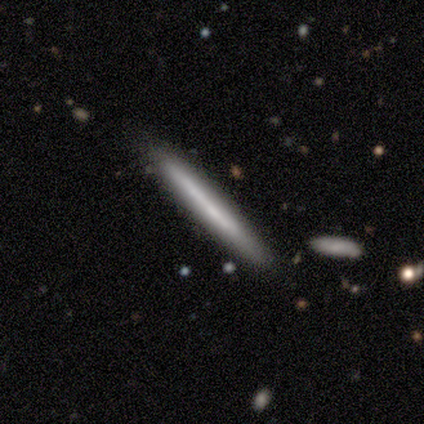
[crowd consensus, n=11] Overall: featured or disk (64%; smooth 36%). Edge-on disk: yes (100%). Edge-on bulge: none (100%). Merging: none (73%).